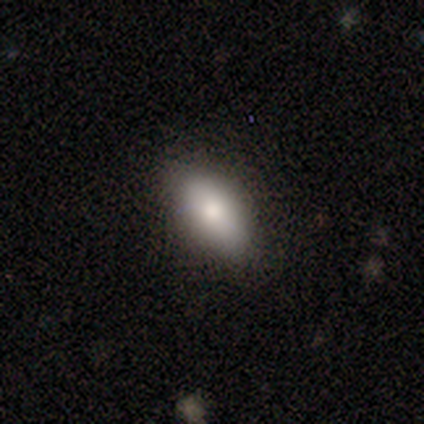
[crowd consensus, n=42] Morphology: type=smooth (88%); roundness=in between (78%); merging=none (81%).